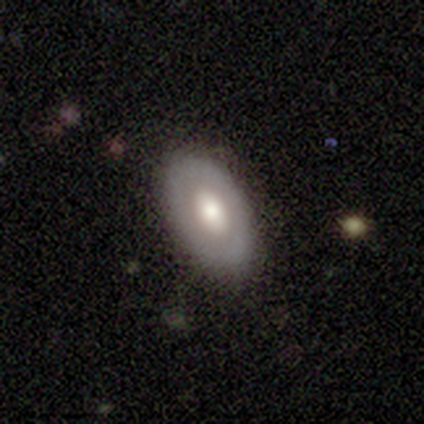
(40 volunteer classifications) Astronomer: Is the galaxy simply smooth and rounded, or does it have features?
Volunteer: smooth — 50% (runner-up: featured or disk, 42%).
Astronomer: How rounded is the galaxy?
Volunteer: in between — 90%.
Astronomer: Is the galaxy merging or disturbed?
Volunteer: none — 78%.